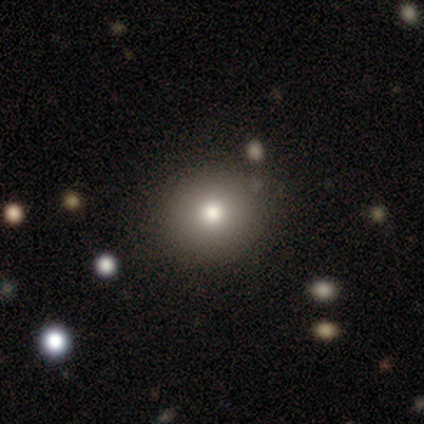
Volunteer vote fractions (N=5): This appears to be a smooth galaxy with no disk features (100%) that is round (100%). Merging: none (100%).